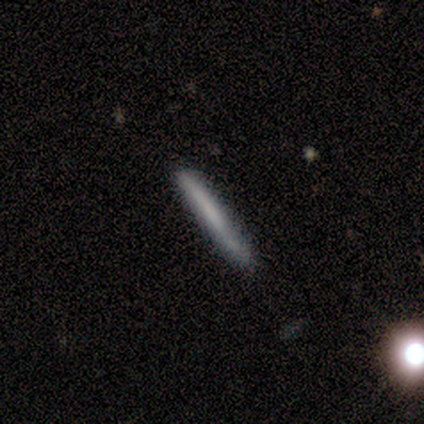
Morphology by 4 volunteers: smooth_or_featured: smooth (p=0.50) [alt: featured or disk p=0.25]
how_rounded: cigar-shaped (p=1.00)
merging: none (p=1.00)